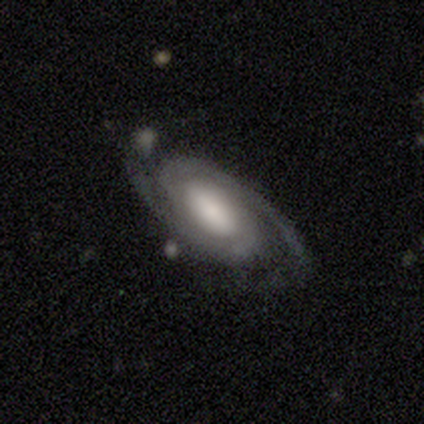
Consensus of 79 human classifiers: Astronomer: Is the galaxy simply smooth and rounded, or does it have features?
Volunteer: featured or disk — 96%.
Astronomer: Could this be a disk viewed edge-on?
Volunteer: no — 95%.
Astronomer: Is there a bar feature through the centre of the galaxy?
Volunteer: weak — 44% (runner-up: no, 33%).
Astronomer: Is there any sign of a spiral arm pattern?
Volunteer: yes — 100%.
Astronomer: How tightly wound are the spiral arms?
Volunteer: tight — 50% (runner-up: medium, 38%).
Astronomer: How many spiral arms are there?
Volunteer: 2 — 90%.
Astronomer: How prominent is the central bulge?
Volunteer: large — 40% (runner-up: moderate, 26%).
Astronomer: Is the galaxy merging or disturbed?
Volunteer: none — 44%.